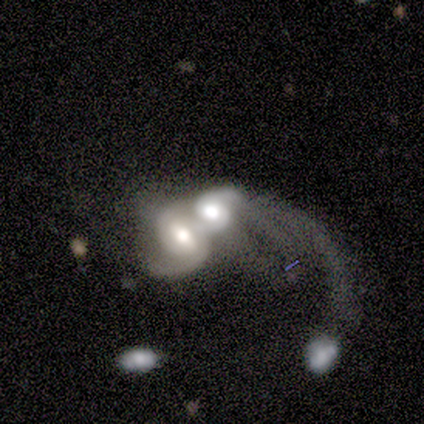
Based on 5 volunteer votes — Morphology: type=featured or disk (60%); edge-on=no (100%); bar=strong (67%); spiral arms=yes (67%); winding=tight (50%, tied with loose); arm count=1 (50%, tied with 2); bulge=dominant (33%, tied with moderate and small); merging=merger (60%).